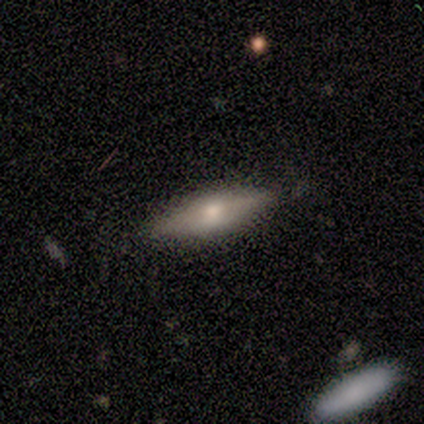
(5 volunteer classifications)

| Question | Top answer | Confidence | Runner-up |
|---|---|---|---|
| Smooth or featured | smooth | 80% | featured or disk (20%) |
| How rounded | cigar-shaped | 100% | — |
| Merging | none | 100% | — |